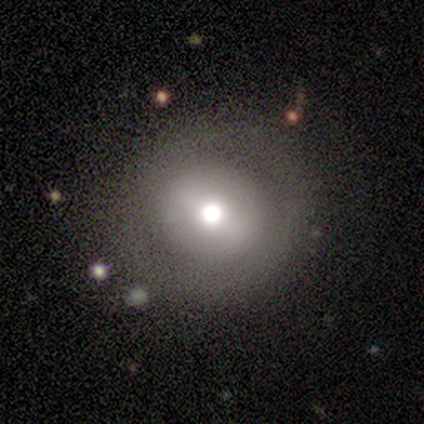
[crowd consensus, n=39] Q: Smooth or featured?
A: smooth (54%); runner-up: featured or disk (36%)
Q: How rounded?
A: round (95%); runner-up: cigar-shaped (5%)
Q: Merging?
A: none (77%); runner-up: minor disturbance (14%)